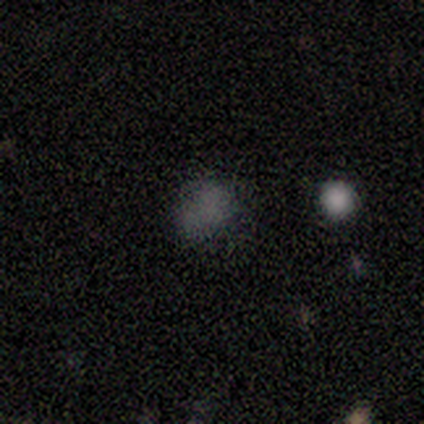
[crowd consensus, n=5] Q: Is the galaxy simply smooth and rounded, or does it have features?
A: smooth — 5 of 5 (100%).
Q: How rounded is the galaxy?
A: in between — 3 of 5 (60%).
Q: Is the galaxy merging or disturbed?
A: none — 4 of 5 (80%).